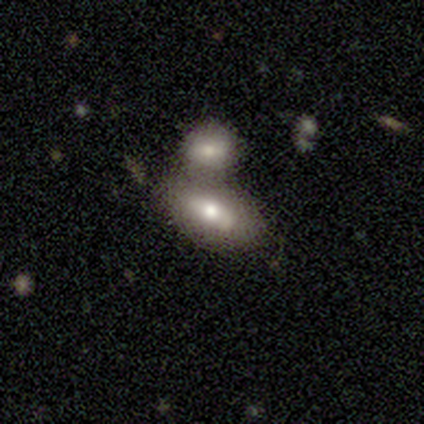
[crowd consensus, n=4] smooth_or_featured: smooth (p=0.75) [alt: featured or disk p=0.25]
how_rounded: in between (p=1.00)
merging: merger (p=0.50) [alt: none p=0.25]